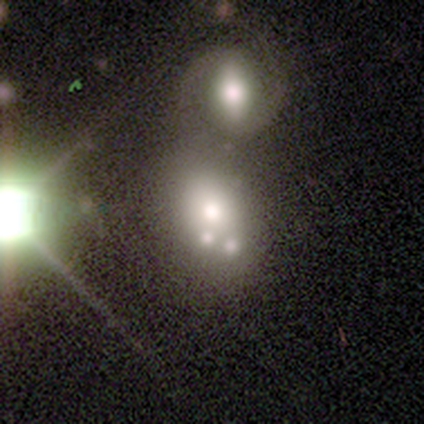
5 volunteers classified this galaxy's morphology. Q: Smooth or featured?
A: smooth (80%); runner-up: featured or disk (20%)
Q: How rounded?
A: in between (75%); runner-up: round (25%)
Q: Merging?
A: merger (80%); runner-up: none (20%)